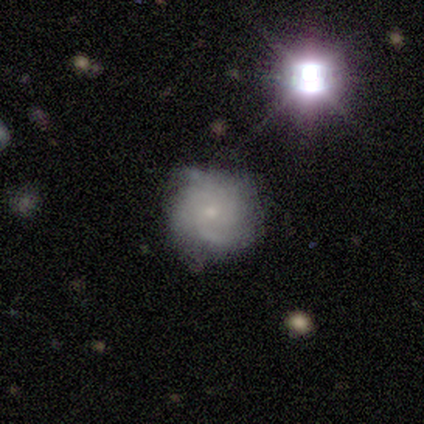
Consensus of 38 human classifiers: A featured or disk galaxy (63%) with no bar (75%), tight (62%) spiral arms (88%) and a small central bulge (71%).

Vote fractions:
- Smooth or featured? featured or disk: 63% / smooth: 21% / star or artifact: 16%
- Edge-on disk? no: 100% / yes: 0%
- Bar? no: 75% / weak: 25% / strong: 0%
- Spiral arms? yes: 88% / no: 12%
- Spiral winding? tight: 62% / medium: 29% / loose: 10%
- Spiral arm count? can't tell: 48% / 4: 24% / 3: 19% / 2: 5% / more than 4: 5% / 1: 0%
- Bulge size? small: 71% / moderate: 17% / none: 12% / dominant: 0% / large: 0%
- Merging? none: 56% / minor disturbance: 34% / major disturbance: 6% / merger: 3%